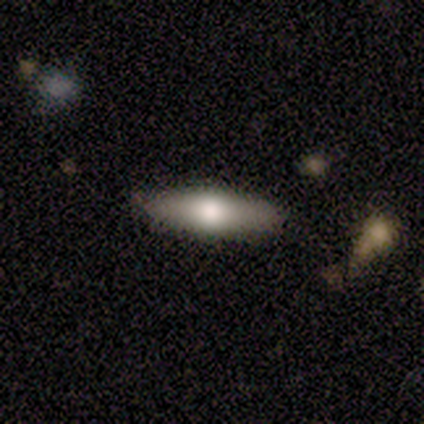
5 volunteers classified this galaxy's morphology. smooth-or-featured: featured or disk: 60% | smooth: 40% | star or artifact: 0%
  disk-edge-on: yes: 100% | no: 0%
    edge-on-bulge: boxy: 67% | rounded: 33% | none: 0%
  merging: none: 80% | merger: 20% | minor disturbance: 0% | major disturbance: 0%